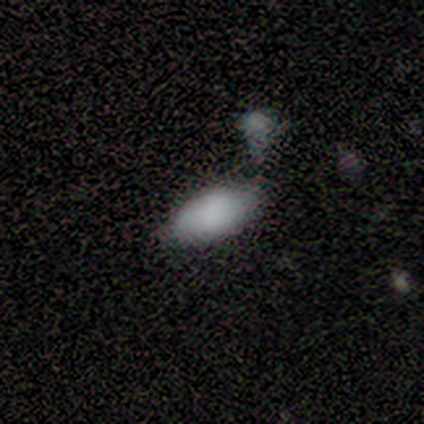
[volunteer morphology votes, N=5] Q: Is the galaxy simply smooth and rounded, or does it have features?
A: smooth — 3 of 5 (60%).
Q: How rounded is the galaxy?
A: in between — 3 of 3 (100%).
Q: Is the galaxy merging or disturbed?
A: none — 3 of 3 (100%).